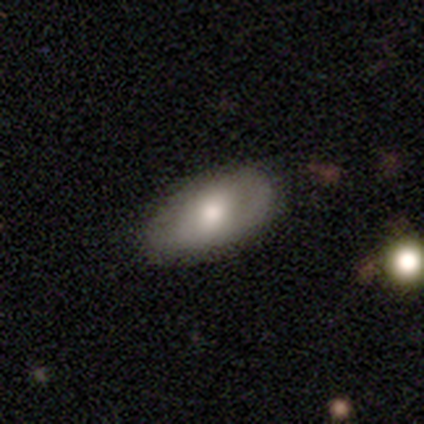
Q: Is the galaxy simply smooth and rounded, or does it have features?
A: smooth — 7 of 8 (88%).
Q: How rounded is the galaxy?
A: in between — 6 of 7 (86%).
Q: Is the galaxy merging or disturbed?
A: none — 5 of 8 (62%).